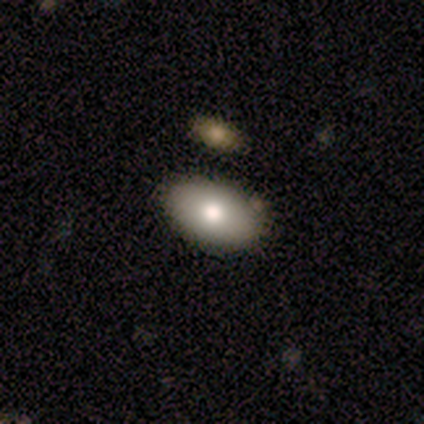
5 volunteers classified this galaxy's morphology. Smooth or featured: smooth — 80% (featured or disk — 20%)
How rounded: in between — 100%
Merging: none — 100%